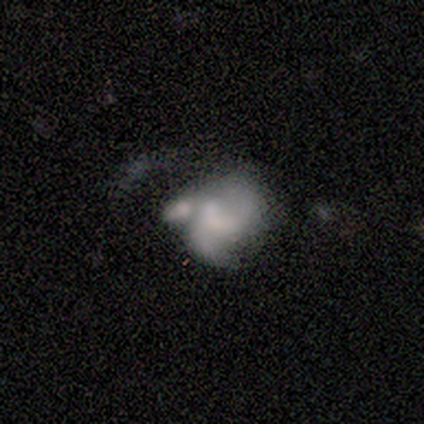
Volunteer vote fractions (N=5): A featured or disk galaxy (60%) with no bar (67%), 2 (50%, tied with can't tell) loose (100%) spiral arms (67%) and no central bulge (67%). Merging: major disturbance (50%, tied with merger).